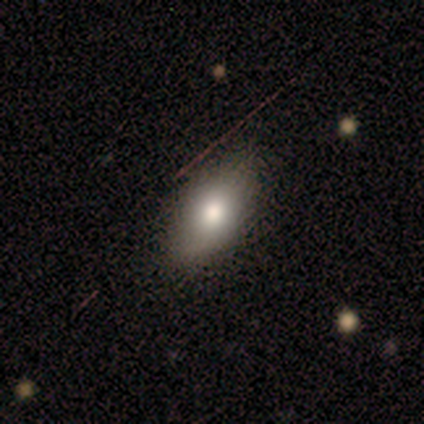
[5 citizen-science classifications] smooth-or-featured: smooth: 80% | featured or disk: 20% | star or artifact: 0%
  how-rounded: in between: 100% | round: 0% | cigar-shaped: 0%
  merging: none: 80% | minor disturbance: 20% | major disturbance: 0% | merger: 0%